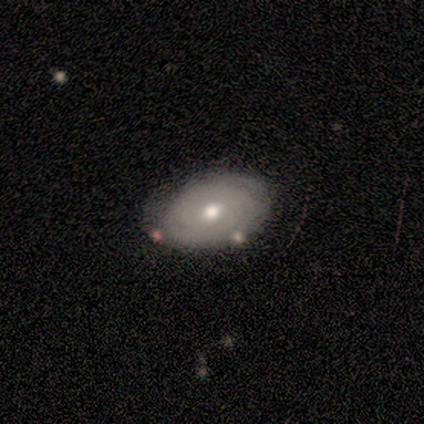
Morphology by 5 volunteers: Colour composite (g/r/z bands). It shows a smooth galaxy with no disk features (80%) that is in between round and cigar-shaped (75%). Merging: none (60%).